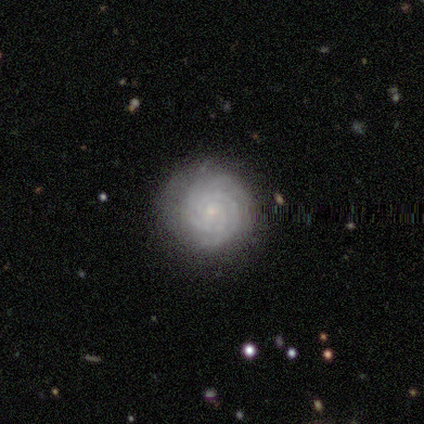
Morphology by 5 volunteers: smooth_or_featured: featured or disk (p=0.80) [alt: smooth p=0.20]
disk_edge_on: no (p=1.00)
bar: no (p=0.75) [alt: weak p=0.25]
has_spiral_arms: yes (p=1.00)
spiral_winding: tight (p=1.00)
spiral_arm_count: 3 (p=0.50) [alt: 2 p=0.25]
bulge_size: small (p=0.75) [alt: moderate p=0.25]
merging: none (p=1.00)